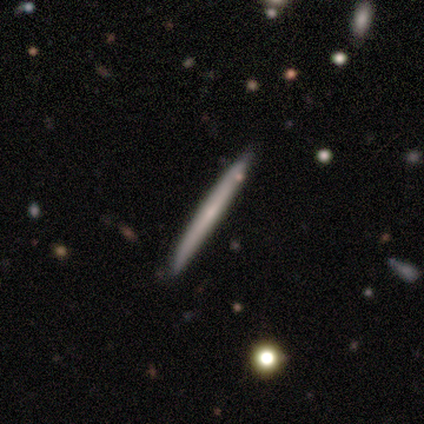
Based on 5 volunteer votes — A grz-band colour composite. It shows a featured or disk galaxy (60%) viewed edge-on (100%) with no central bulge (67%). Merging: none (100%).